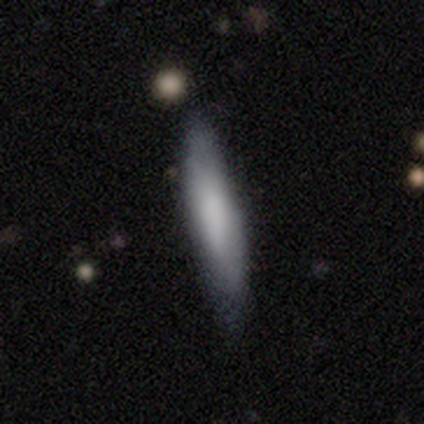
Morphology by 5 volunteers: This appears to be a smooth galaxy with no disk features (60%) that is cigar-shaped (100%). Merging: none (80%).